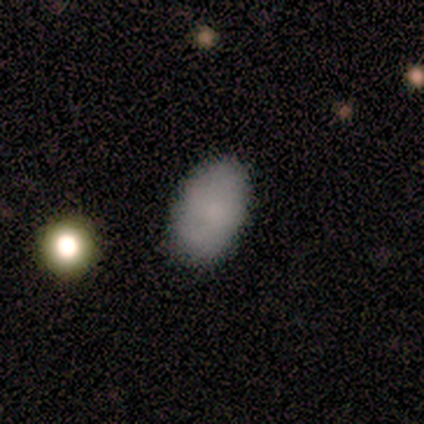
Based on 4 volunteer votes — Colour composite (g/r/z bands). It shows a smooth galaxy with no disk features (75%) that is in between round and cigar-shaped (100%). Merging: none (100%).